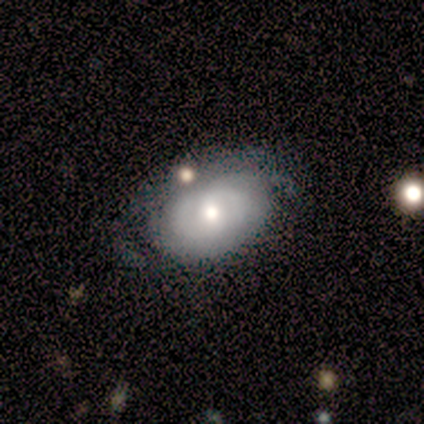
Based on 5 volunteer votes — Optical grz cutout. It shows a featured or disk galaxy (60%) with no bar (67%), 2 (50%, tied with can't tell) tight (50%, tied with loose) spiral arms (67%) and a moderate central bulge (67%). Merging: none (60%).